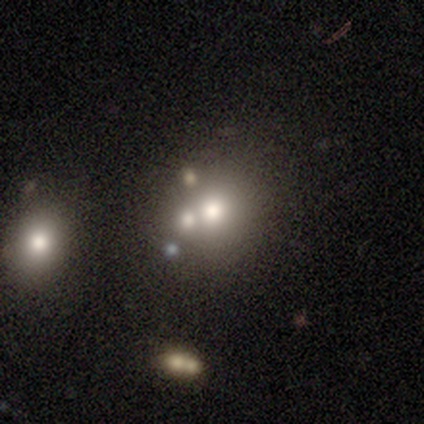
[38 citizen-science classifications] A smooth galaxy with no disk features (61%) that is round (78%). Merging: none (48%).